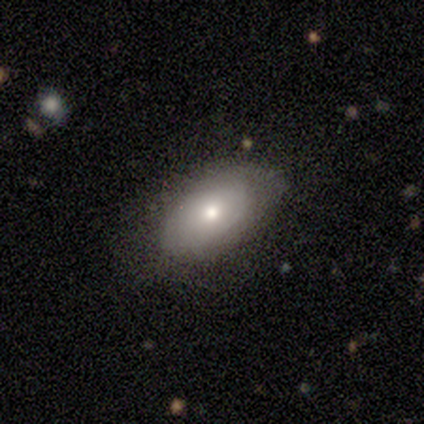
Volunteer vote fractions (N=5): Morphology: type=smooth (100%); roundness=in between (80%); merging=minor disturbance (60%).